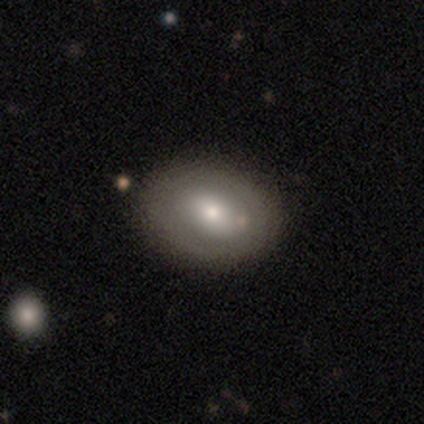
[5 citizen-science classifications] Smooth or featured?
  - smooth: 80% *
  - featured or disk: 20%
  - star or artifact: 0%
How rounded?
  - round: 75% *
  - in between: 25%
  - cigar-shaped: 0%
Merging?
  - none: 60% *
  - minor disturbance: 40%
  - major disturbance: 0%
  - merger: 0%